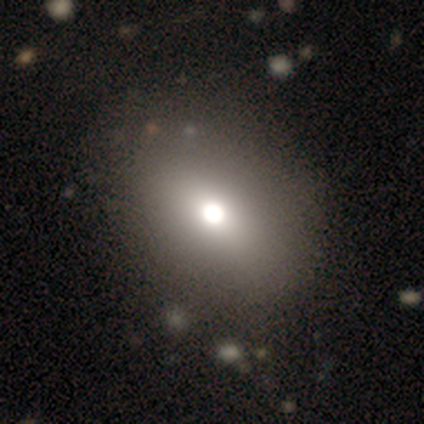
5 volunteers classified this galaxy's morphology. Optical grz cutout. It shows a smooth galaxy with no disk features (100%) that is in between round and cigar-shaped (60%). Merging: none (80%).